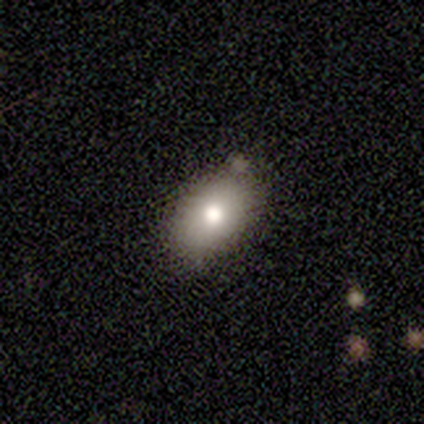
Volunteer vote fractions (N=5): Smooth or featured: smooth — 100%
How rounded: in between — 100%
Merging: none — 80% (minor disturbance — 20%)